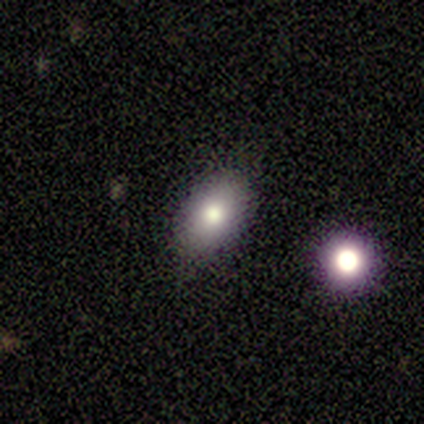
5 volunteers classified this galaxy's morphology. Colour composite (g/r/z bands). It shows a smooth galaxy with no disk features (100%) that is in between round and cigar-shaped (60%). Merging: none (100%).